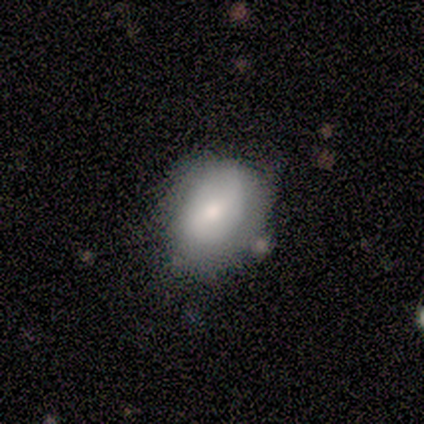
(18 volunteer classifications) Q: Smooth or featured?
A: smooth (72%); runner-up: featured or disk (28%)
Q: How rounded?
A: round (62%); runner-up: in between (38%)
Q: Merging?
A: none (44%); tied with: minor disturbance (44%)